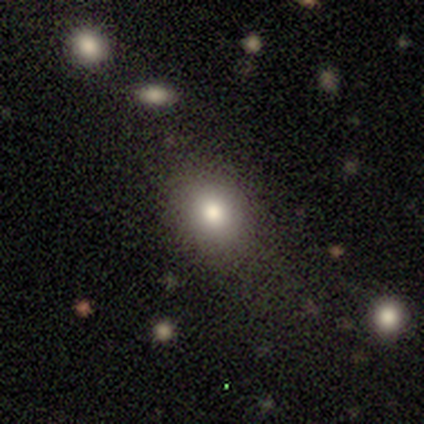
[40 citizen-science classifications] Volunteers were most divided on "how rounded" (2-way tie): round: 50%, in between: 50%, cigar-shaped: 0%. More confident: smooth or featured — smooth (75%); merging — none (73%).